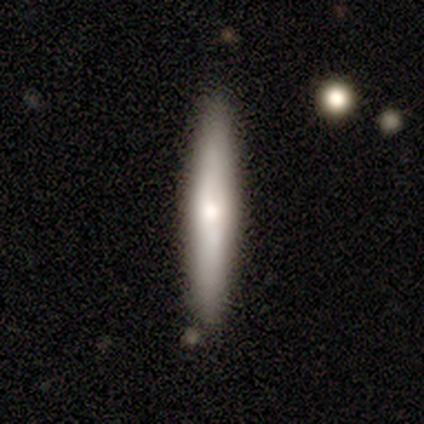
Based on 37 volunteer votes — Volunteers were most divided on "smooth or featured": smooth: 54%, featured or disk: 38%, star or artifact: 8%. More confident: how rounded — cigar-shaped (100%); merging — none (91%).